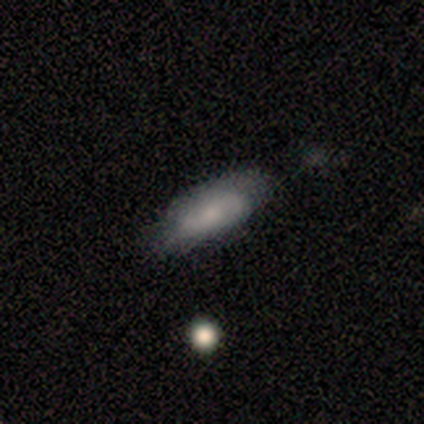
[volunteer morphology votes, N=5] Smooth or featured? smooth (100%)
How rounded? in between (100%)
Merging? none (100%)